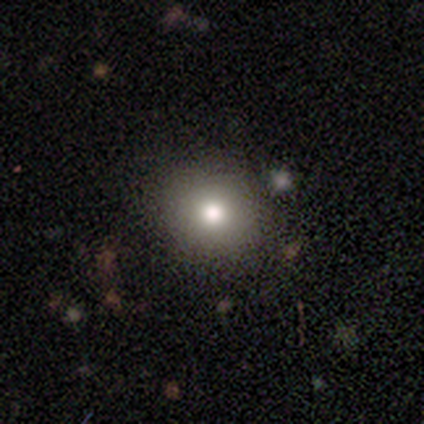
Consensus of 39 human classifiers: smooth 67%, featured or disk 18%, star or artifact 15%. Down the decision tree: how rounded — round (77%); merging — none (94%).